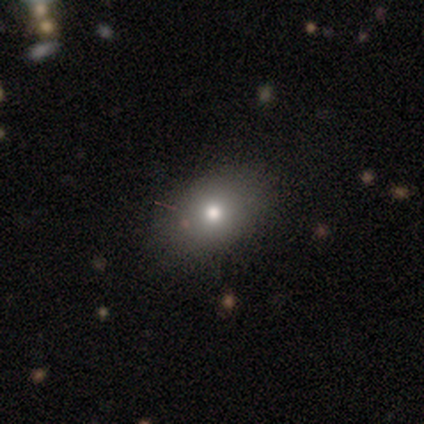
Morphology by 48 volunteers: A smooth galaxy with no disk features (62%) that is in between round and cigar-shaped (70%). Merging: none (89%).